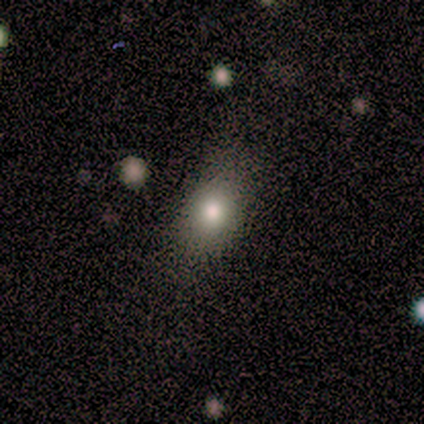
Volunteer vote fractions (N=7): Overall: smooth (57%; featured or disk 29%). How rounded: round (50%, tied with in between). Merging: none (100%).